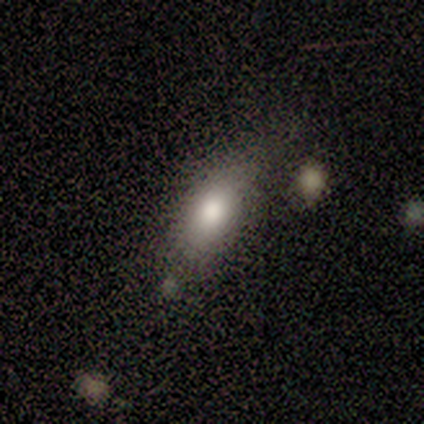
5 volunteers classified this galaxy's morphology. Smooth or featured?
  - smooth: 100% *
  - featured or disk: 0%
  - star or artifact: 0%
How rounded?
  - in between: 100% *
  - round: 0%
  - cigar-shaped: 0%
Merging?
  - none: 80% *
  - minor disturbance: 20%
  - major disturbance: 0%
  - merger: 0%